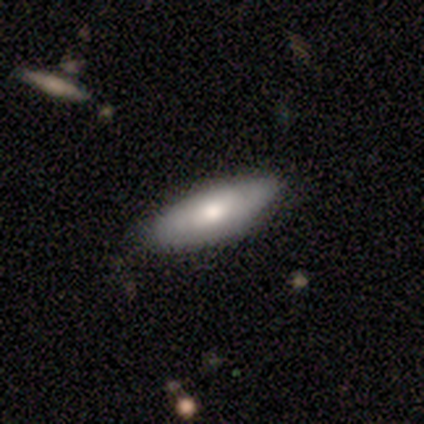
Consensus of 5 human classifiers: A featured or disk galaxy (80%) with no bar (67%), no spiral arms (100%) and a moderate central bulge (100%).

Vote fractions:
- Smooth or featured? featured or disk: 80% / smooth: 20% / star or artifact: 0%
- Edge-on disk? no: 75% / yes: 25%
- Bar? no: 67% / weak: 33% / strong: 0%
- Spiral arms? no: 100% / yes: 0%
- Bulge size? moderate: 100% / dominant: 0% / large: 0% / small: 0% / none: 0%
- Merging? none: 80% / minor disturbance: 20% / major disturbance: 0% / merger: 0%